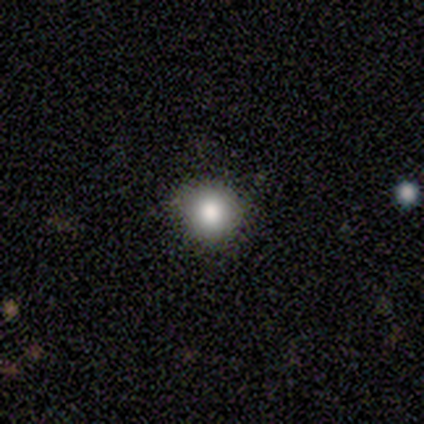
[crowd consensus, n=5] Overall: smooth (80%). How rounded: round (100%). Merging: none (100%).